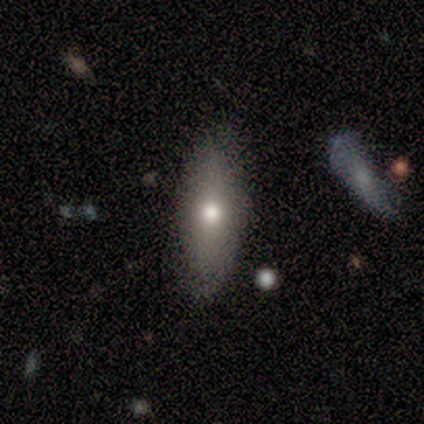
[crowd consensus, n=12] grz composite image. It shows a smooth galaxy with no disk features (75%) that is in between round and cigar-shaped (78%). Merging: none (67%).